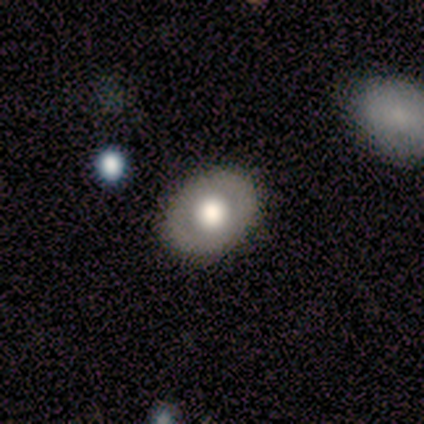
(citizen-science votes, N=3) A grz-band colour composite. It shows a featured or disk galaxy (67%) with no bar (100%), no spiral arms (100%) and a large central bulge (50%, tied with moderate). Merging: none (100%).